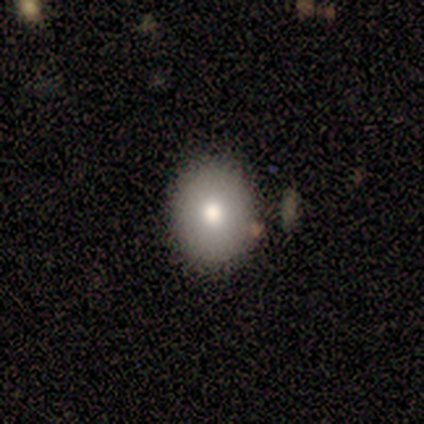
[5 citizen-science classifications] smooth-or-featured: smooth: 60% | featured or disk: 20% | star or artifact: 20%
  how-rounded: in between: 67% | round: 33% | cigar-shaped: 0%
  merging: none: 100% | minor disturbance: 0% | major disturbance: 0% | merger: 0%